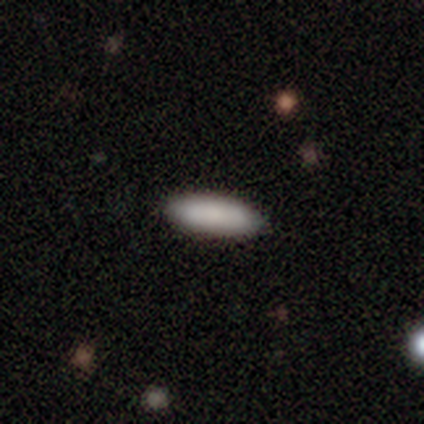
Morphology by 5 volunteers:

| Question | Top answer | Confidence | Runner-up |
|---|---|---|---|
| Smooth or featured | smooth | 100% | — |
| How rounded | cigar-shaped | 60% | in between (40%) |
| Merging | none | 100% | — |